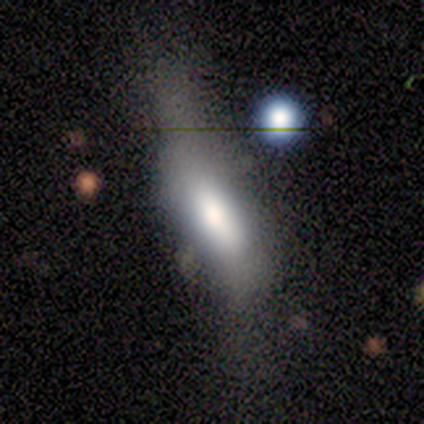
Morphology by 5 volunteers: featured or disk 60%, smooth 40%, star or artifact 0%. Down the decision tree: edge-on disk — yes (67%); edge-on bulge — boxy (50%, tied with rounded); merging — none (60%).